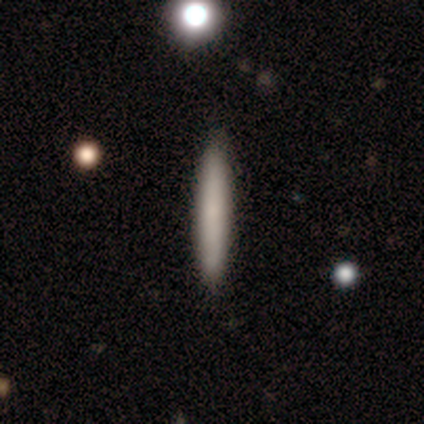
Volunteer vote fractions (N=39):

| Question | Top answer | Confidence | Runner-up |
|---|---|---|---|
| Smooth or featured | smooth | 82% | featured or disk (15%) |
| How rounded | cigar-shaped | 94% | in between (6%) |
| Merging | none | 97% | minor disturbance (3%) |